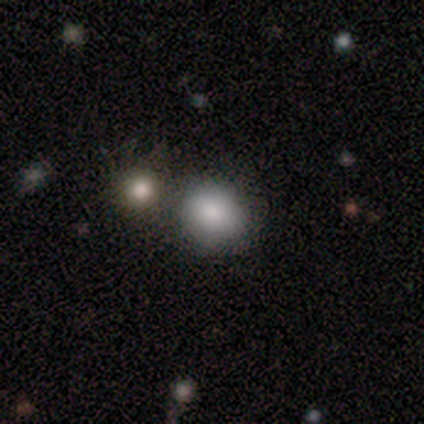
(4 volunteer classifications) Smooth or featured: smooth — 75% (featured or disk — 25%)
How rounded: round — 100%
Merging: none — 75% (minor disturbance — 25%)